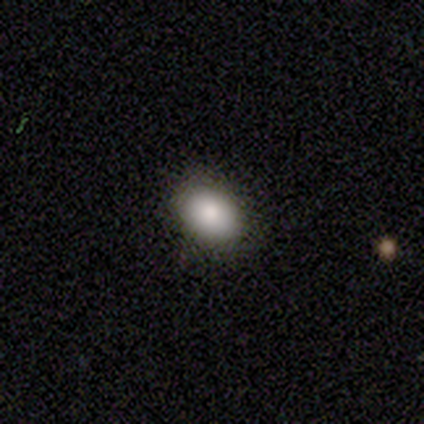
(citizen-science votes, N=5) This appears to be a smooth galaxy with no disk features (80%) that is in between round and cigar-shaped (100%). Merging: none (80%).